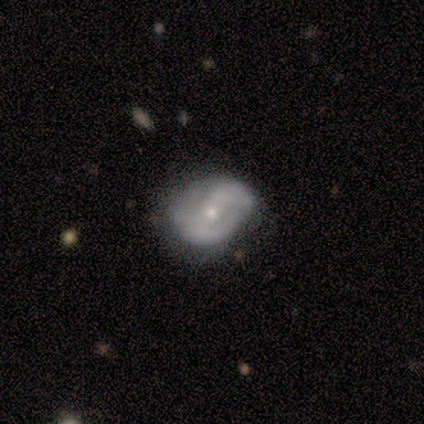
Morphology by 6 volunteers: Overall: smooth (50%, tied with featured or disk). How rounded: round (67%; in between 33%). Merging: none (50%; major disturbance 33%).